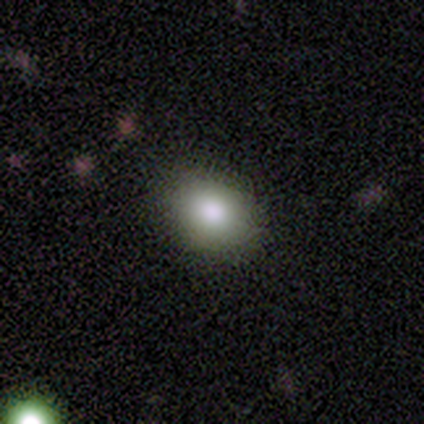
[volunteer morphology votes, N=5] Overall: smooth (100%). How rounded: in between (60%; round 40%). Merging: none (100%).